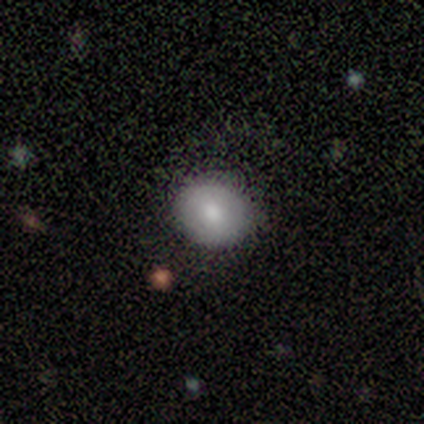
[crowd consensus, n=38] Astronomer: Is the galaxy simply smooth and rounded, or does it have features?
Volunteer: smooth — 74%.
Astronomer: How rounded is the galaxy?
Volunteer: round — 68%.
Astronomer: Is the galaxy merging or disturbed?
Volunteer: none — 81%.